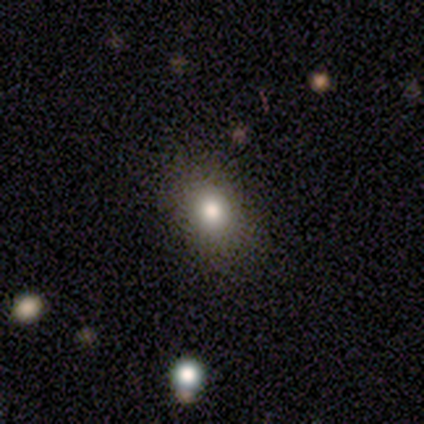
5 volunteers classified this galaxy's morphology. smooth_or_featured: smooth (p=0.40) [tied with: star or artifact p=0.40]
how_rounded: round (p=1.00)
merging: none (p=0.67) [alt: minor disturbance p=0.33]